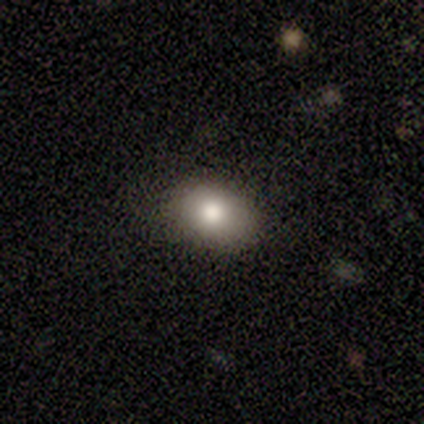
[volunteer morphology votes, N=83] Volunteers were most divided on "how rounded": in between: 79%, round: 21%, cigar-shaped: 0%. More confident: smooth or featured — smooth (84%); merging — none (83%).